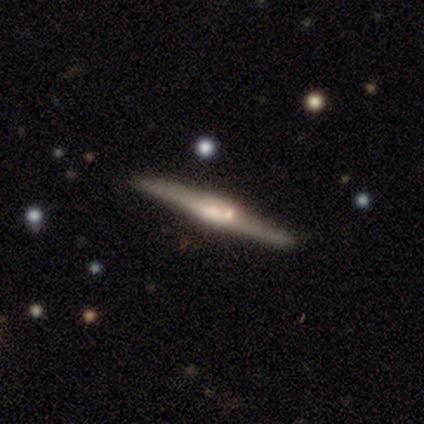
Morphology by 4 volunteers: Smooth or featured: featured or disk — 75% (star or artifact — 25%)
Edge-on disk: yes — 100%
Edge-on bulge: rounded — 100%
Merging: none — 100%